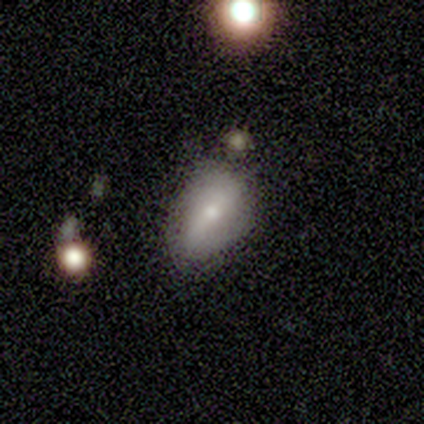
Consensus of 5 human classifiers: Smooth or featured?
  - smooth: 40% * (tied)
  - featured or disk: 40% * (tied)
  - star or artifact: 20%
How rounded?
  - in between: 100% *
  - round: 0%
  - cigar-shaped: 0%
Merging?
  - minor disturbance: 75% *
  - merger: 25%
  - none: 0%
  - major disturbance: 0%